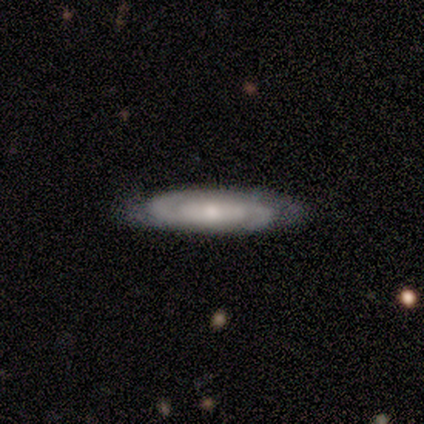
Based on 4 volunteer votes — This is clearly a featured or disk galaxy (100%). It is possibly viewed edge-on (50%, tied with no). Edge-on bulge: possibly boxy (50%, tied with none). Merging: likely none (75%).